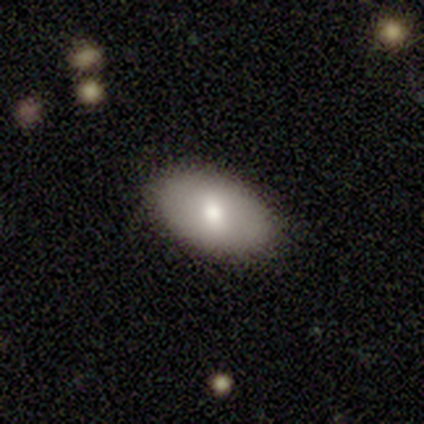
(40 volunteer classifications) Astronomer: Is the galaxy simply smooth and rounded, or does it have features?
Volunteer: smooth — 75%.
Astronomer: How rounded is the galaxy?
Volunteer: in between — 97%.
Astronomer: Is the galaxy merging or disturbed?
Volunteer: none — 90%.